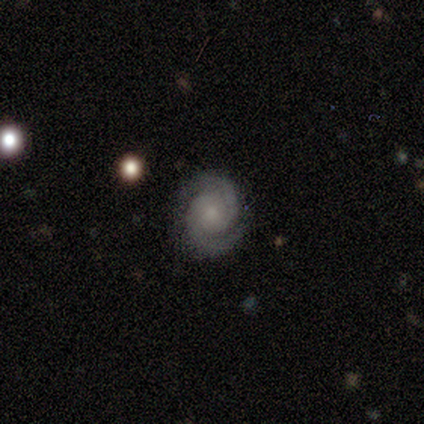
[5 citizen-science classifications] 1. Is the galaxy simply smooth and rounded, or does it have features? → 100% featured or disk, 0% smooth, 0% star or artifact.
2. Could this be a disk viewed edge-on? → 100% no, 0% yes.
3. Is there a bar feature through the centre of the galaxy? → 60% no, 40% weak, 0% strong.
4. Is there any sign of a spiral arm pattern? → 100% yes, 0% no.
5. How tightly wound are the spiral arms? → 60% medium, 40% tight, 0% loose.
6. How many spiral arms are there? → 100% 2, 0% 1, 0% 3, 0% 4, 0% more than 4, 0% can't tell.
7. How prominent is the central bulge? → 60% small, 40% moderate, 0% dominant, 0% large, 0% none.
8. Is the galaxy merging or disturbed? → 100% none, 0% minor disturbance, 0% major disturbance, 0% merger.